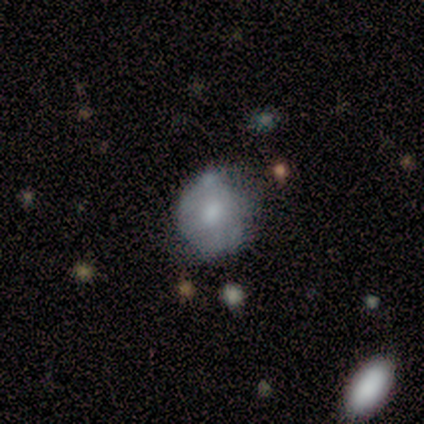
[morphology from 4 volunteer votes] Overall: smooth (50%; featured or disk 25%). How rounded: round (100%). Merging: minor disturbance (67%; none 33%).